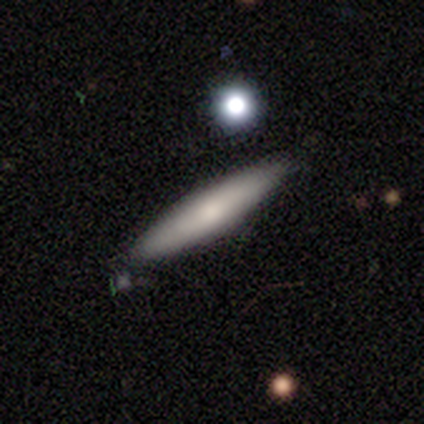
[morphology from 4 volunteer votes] smooth 50%, featured or disk 25%, star or artifact 25%. Down the decision tree: how rounded — cigar-shaped (100%); merging — none (33%, tied with minor disturbance and major disturbance).